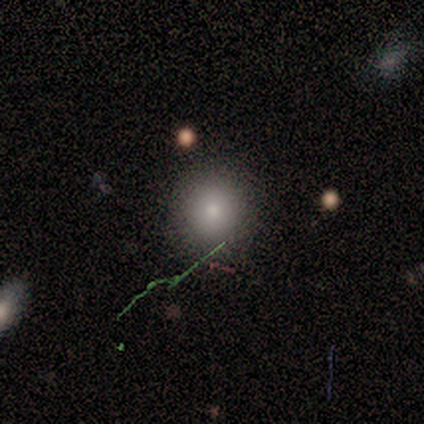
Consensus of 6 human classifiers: Smooth or featured?
  - smooth: 83% *
  - star or artifact: 17%
  - featured or disk: 0%
How rounded?
  - round: 100% *
  - in between: 0%
  - cigar-shaped: 0%
Merging?
  - none: 80% *
  - minor disturbance: 20%
  - major disturbance: 0%
  - merger: 0%